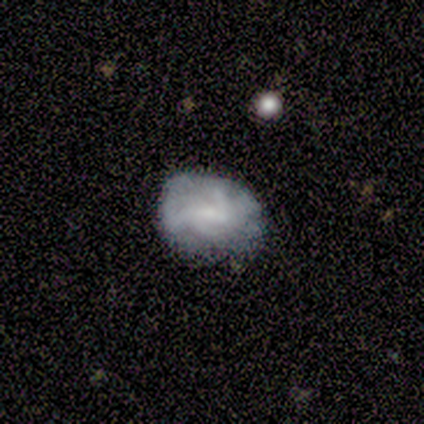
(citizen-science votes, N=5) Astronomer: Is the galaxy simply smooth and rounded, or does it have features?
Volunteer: featured or disk — 100%.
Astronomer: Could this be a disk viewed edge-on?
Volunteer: no — 100%.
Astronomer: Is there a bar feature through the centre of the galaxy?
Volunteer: weak — 60% (runner-up: no, 40%).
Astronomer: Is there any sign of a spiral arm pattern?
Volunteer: no — 60% (runner-up: yes, 40%).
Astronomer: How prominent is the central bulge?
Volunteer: small — 40%, tied with none at 40%.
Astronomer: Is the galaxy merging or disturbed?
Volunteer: minor disturbance — 60% (runner-up: none, 40%).